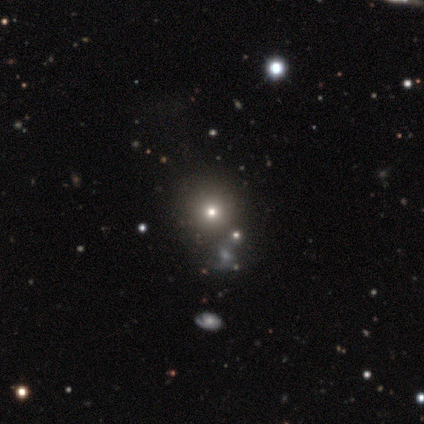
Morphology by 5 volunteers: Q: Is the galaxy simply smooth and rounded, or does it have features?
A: smooth — 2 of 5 (40%, tied with featured or disk).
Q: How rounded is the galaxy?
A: round — 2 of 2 (100%).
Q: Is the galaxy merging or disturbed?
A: none — 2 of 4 (50%).